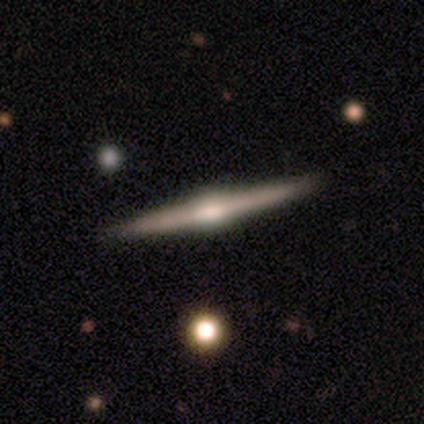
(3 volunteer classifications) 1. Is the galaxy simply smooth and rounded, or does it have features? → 100% featured or disk, 0% smooth, 0% star or artifact.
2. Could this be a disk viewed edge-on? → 100% yes, 0% no.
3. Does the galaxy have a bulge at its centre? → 100% rounded, 0% boxy, 0% none.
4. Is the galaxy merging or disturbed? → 100% none, 0% minor disturbance, 0% major disturbance, 0% merger.